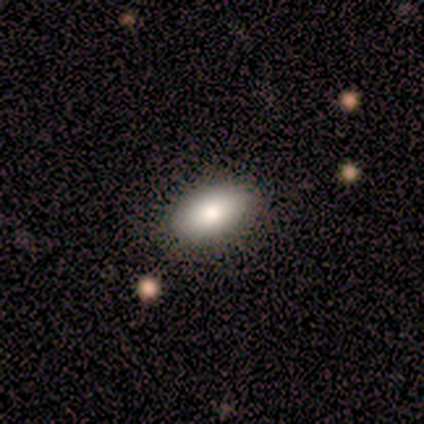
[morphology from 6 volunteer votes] A smooth galaxy with no disk features (100%) that is in between round and cigar-shaped (83%). Merging: none (83%).